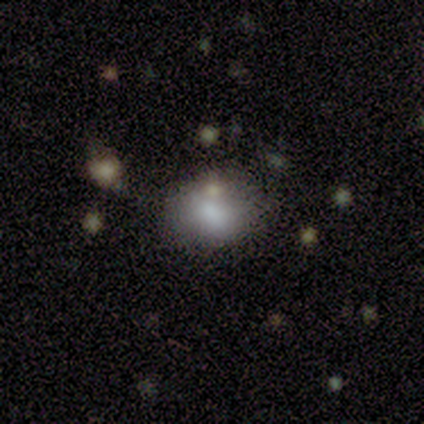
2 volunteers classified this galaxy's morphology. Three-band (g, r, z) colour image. It shows a smooth galaxy with no disk features (100%) that is round (50%, tied with in between). Merging: none (100%).